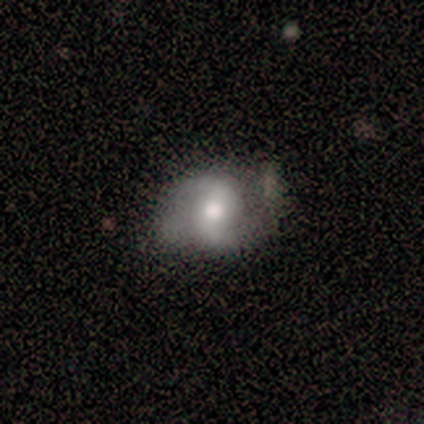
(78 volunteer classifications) smooth-or-featured: featured or disk: 72% | smooth: 24% | star or artifact: 4%
  disk-edge-on: no: 96% | yes: 4%
    bar: no: 48% | weak: 37% | strong: 15%
    has-spiral-arms: yes: 98% | no: 2%
      spiral-winding: loose: 43% | medium: 40% | tight: 17%
      spiral-arm-count: 2: 94% | can't tell: 6% | 1: 0% | 3: 0% | 4: 0% | more than 4: 0%
    bulge-size: moderate: 65% | large: 19% | small: 13% | dominant: 4% | none: 0%
  merging: none: 36% | minor disturbance: 9% | major disturbance: 7% | merger: 3%